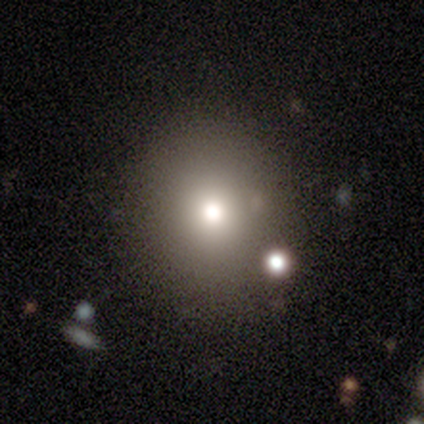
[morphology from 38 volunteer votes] Smooth or featured? 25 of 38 (66%) said smooth. How rounded? 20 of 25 (80%) said round. Merging? 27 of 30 (90%) said none.